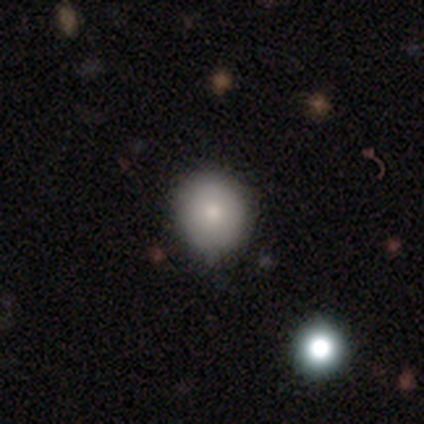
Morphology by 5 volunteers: Smooth or featured? smooth (100%)
How rounded? round (80%)
Merging? none (60%)